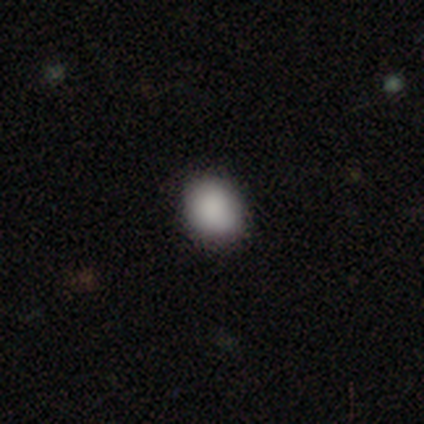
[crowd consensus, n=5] This appears to be a smooth galaxy with no disk features (80%) that is round (75%). Merging: none (100%).